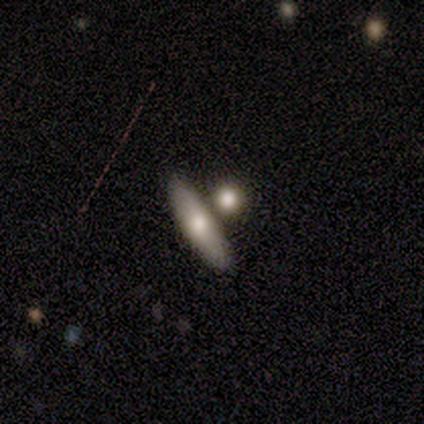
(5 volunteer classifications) Volunteers were most divided on "merging": none: 60%, merger: 40%, minor disturbance: 0%, major disturbance: 0%. More confident: smooth or featured — smooth (100%); how rounded — in between (80%).